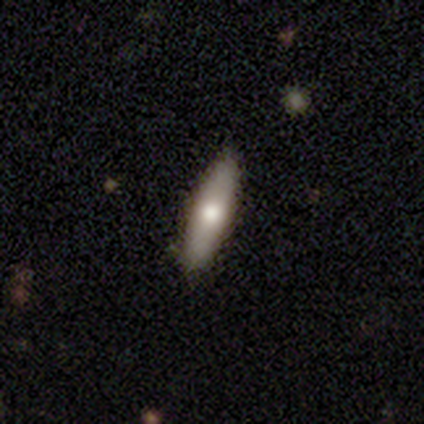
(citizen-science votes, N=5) This appears to be a smooth galaxy with no disk features (80%) that is in between round and cigar-shaped (50%, tied with cigar-shaped). Merging: none (80%).